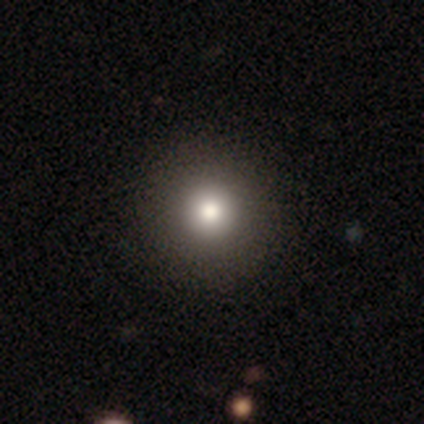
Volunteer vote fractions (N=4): Smooth or featured: smooth — 100%
How rounded: round — 100%
Merging: none — 100%